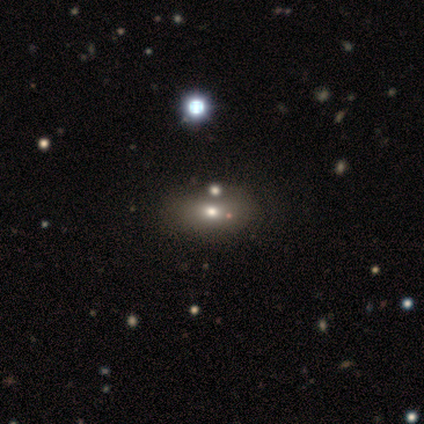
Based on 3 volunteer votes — smooth_or_featured: smooth (p=0.67) [alt: star or artifact p=0.33]
how_rounded: in between (p=1.00)
merging: none (p=0.50) [tied with: merger p=0.50]